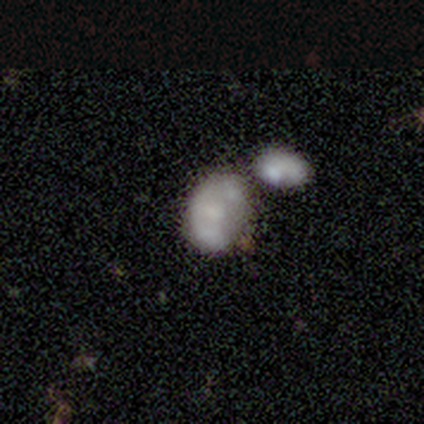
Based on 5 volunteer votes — This appears to be a featured or disk galaxy (60%) with no bar (100%), no spiral arms (100%) and no central bulge (67%). Merging: merger (60%).